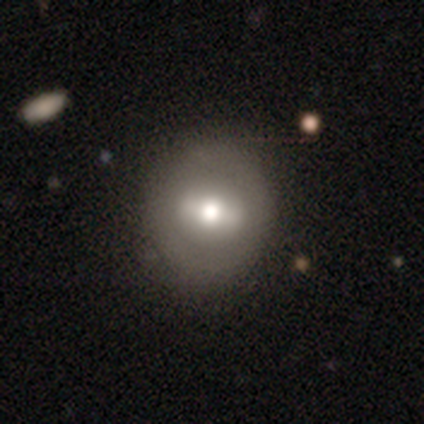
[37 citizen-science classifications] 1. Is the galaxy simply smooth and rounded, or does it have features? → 46% smooth, 43% featured or disk, 11% star or artifact.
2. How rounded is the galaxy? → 82% round, 18% in between, 0% cigar-shaped.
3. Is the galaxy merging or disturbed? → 61% none, 12% minor disturbance, 3% major disturbance, 3% merger.